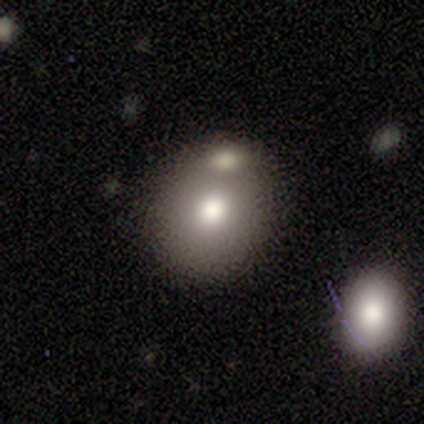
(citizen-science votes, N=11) Overall: smooth (73%). How rounded: round (62%; in between 38%). Merging: merger (55%; none 36%).